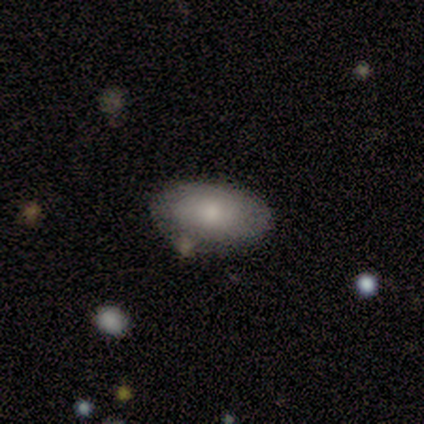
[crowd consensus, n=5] Smooth or featured? 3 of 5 (60%) said featured or disk. Edge-on disk? 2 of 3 (67%) said no. Bar? 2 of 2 (100%) said no. Spiral arms? 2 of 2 (100%) said yes. Spiral winding? 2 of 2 (100%) said tight. Spiral arm count? 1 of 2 (50%, tied with can't tell) said 1. Bulge size? 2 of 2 (100%) said small. Merging? 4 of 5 (80%) said none.